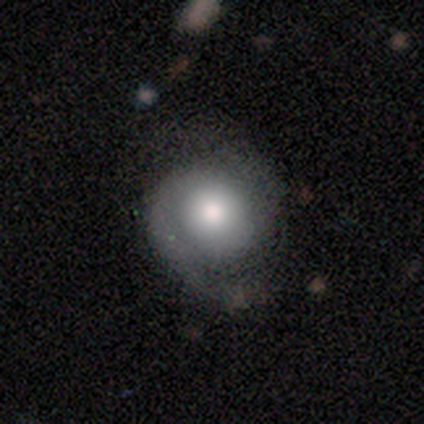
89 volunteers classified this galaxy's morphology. This is likely a featured or disk galaxy (63%). It is clearly not viewed edge-on (96%). Bar: clearly no (81%). Spiral arm pattern: likely yes (80%). Spiral arm count: likely 2 (74%). Spiral winding: possibly medium (47%). Central bulge: possibly moderate (52%). Merging: likely none (61%).